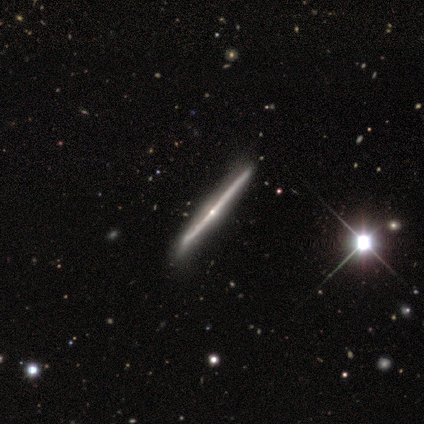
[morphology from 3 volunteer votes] Smooth or featured: featured or disk — 100%
Edge-on disk: yes — 100%
Edge-on bulge: rounded — 100%
Merging: minor disturbance — 67% (none — 33%)